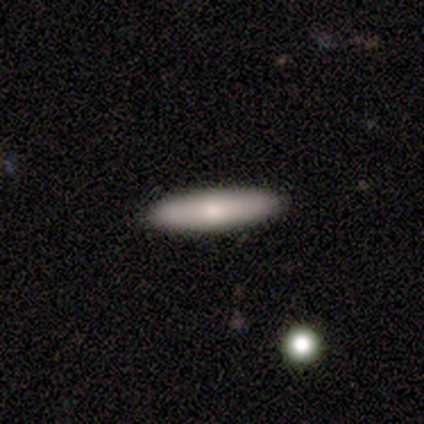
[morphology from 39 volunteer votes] Overall: smooth (82%). How rounded: cigar-shaped (75%). Merging: none (89%).